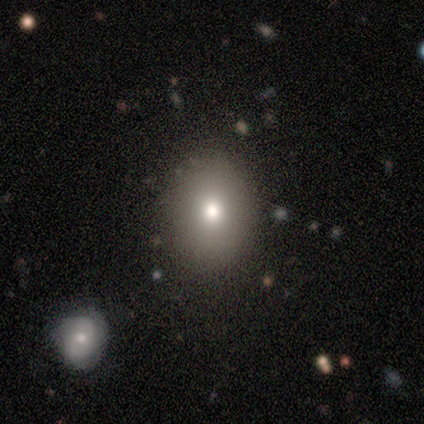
A smooth galaxy with no disk features (100%) that is in between round and cigar-shaped (60%). Merging: none (100%).